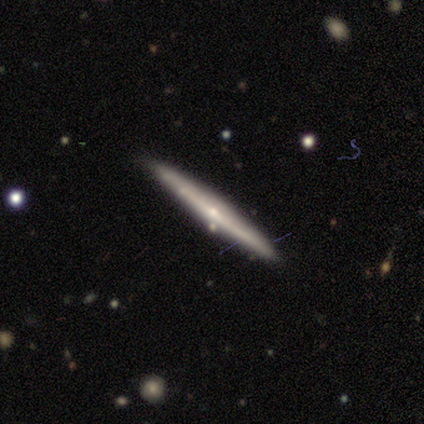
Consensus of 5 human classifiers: Smooth or featured?
  - featured or disk: 80% *
  - smooth: 20%
  - star or artifact: 0%
Edge-on disk?
  - yes: 100% *
  - no: 0%
Edge-on bulge?
  - none: 50% * (tied)
  - rounded: 50% * (tied)
  - boxy: 0%
Merging?
  - none: 100% *
  - minor disturbance: 0%
  - major disturbance: 0%
  - merger: 0%